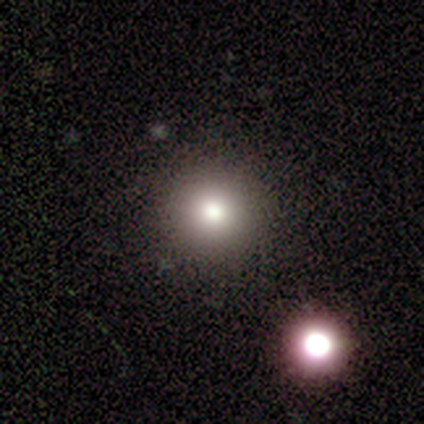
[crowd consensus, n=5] A smooth galaxy with no disk features (60%) that is round (100%). Merging: none (100%).